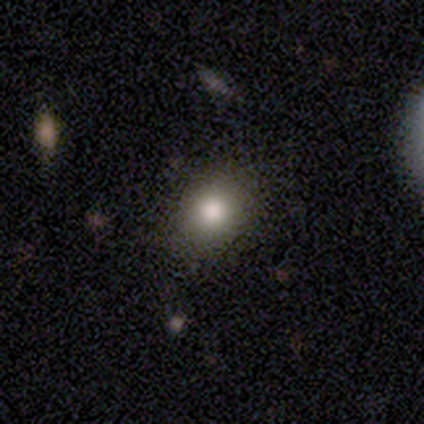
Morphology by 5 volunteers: Smooth or featured? 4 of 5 (80%) said smooth. How rounded? 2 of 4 (50%, tied with in between) said round. Merging? 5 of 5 (100%) said none.